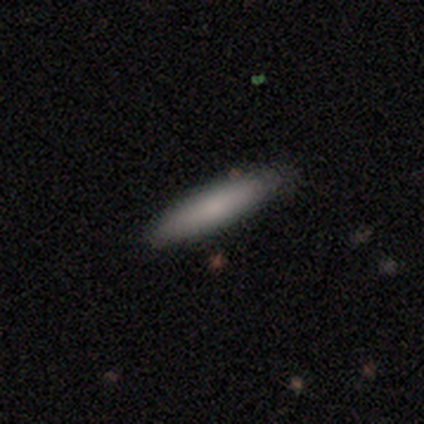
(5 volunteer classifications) A smooth galaxy with no disk features (100%) that is cigar-shaped (80%). Merging: none (60%).